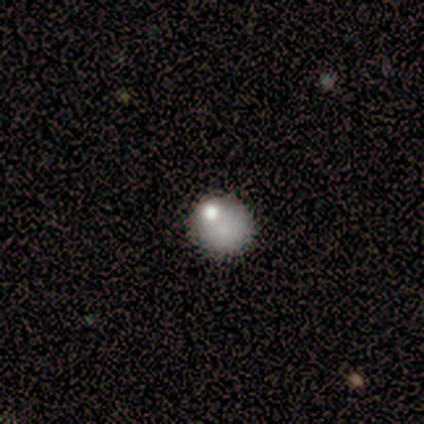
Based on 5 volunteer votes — Smooth or featured?
  - smooth: 100% *
  - featured or disk: 0%
  - star or artifact: 0%
How rounded?
  - round: 80% *
  - in between: 20%
  - cigar-shaped: 0%
Merging?
  - none: 60% *
  - minor disturbance: 20%
  - merger: 20%
  - major disturbance: 0%